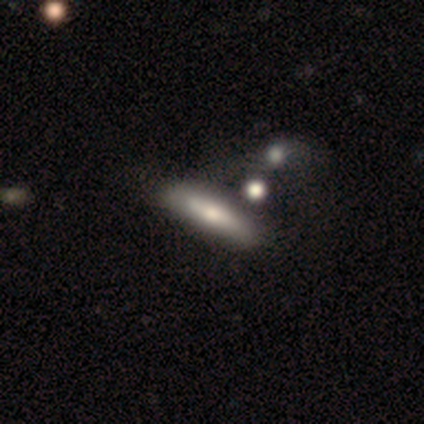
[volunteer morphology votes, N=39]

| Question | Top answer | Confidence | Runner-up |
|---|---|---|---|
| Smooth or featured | smooth | 67% | featured or disk (28%) |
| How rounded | cigar-shaped | 69% | in between (31%) |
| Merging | none | 41% | merger (22%) |